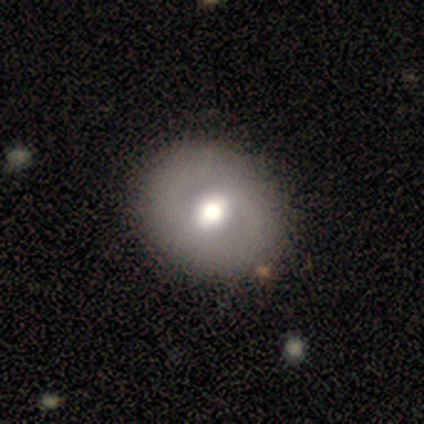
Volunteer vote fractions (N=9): Volunteers were most divided on "how rounded": in between: 60%, round: 40%, cigar-shaped: 0%. More confident: merging — none (100%); smooth or featured — smooth (56%).